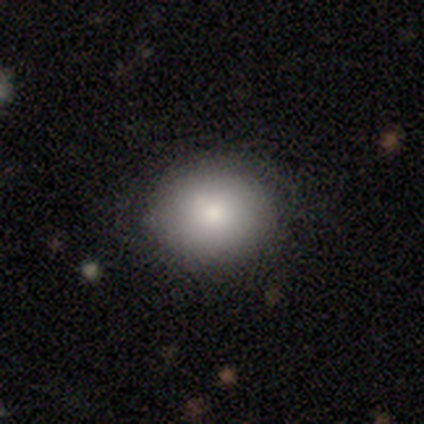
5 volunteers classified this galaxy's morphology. Smooth or featured? 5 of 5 (100%) said smooth. How rounded? 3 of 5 (60%) said round. Merging? 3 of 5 (60%) said none.